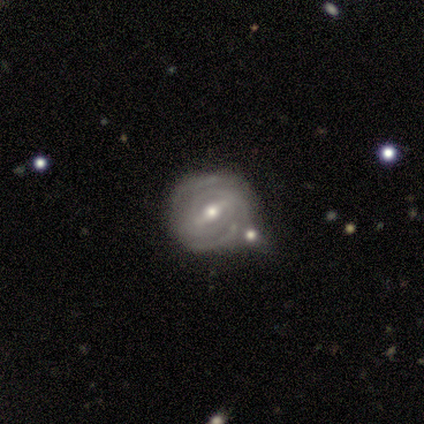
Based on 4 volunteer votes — Volunteers were most divided on "spiral arm count" (3-way tie): 2: 33%, 3: 33%, can't tell: 33%, 1: 0%, 4: 0%, more than 4: 0%. More confident: edge-on disk — no (100%); spiral arms — yes (100%); spiral winding — tight (100%); bulge size — small (100%); smooth or featured — featured or disk (75%); merging — none (75%); bar — weak (67%).